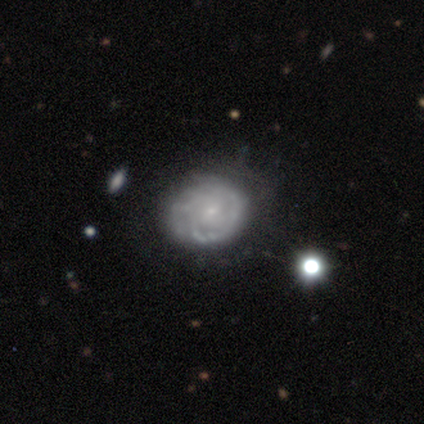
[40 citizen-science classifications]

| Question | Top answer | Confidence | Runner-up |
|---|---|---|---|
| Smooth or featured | featured or disk | 80% | smooth (18%) |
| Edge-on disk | no | 94% | yes (6%) |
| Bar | no | 80% | weak (20%) |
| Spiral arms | yes | 67% | no (33%) |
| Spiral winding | tight | 75% | medium (15%) |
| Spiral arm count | can't tell | 65% | 1 (15%) |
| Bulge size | small | 80% | moderate (10%) |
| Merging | none | 72% | minor disturbance (23%) |